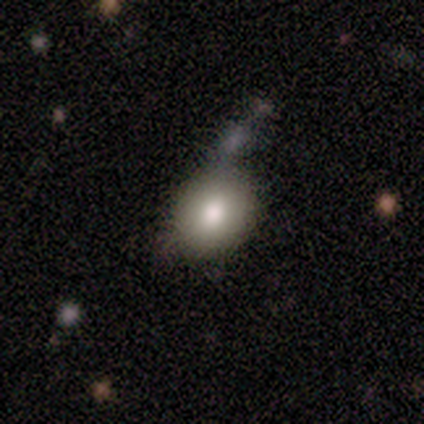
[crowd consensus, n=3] Smooth or featured?
  - smooth: 100% *
  - featured or disk: 0%
  - star or artifact: 0%
How rounded?
  - round: 67% *
  - in between: 33%
  - cigar-shaped: 0%
Merging?
  - none: 67% *
  - minor disturbance: 33%
  - major disturbance: 0%
  - merger: 0%